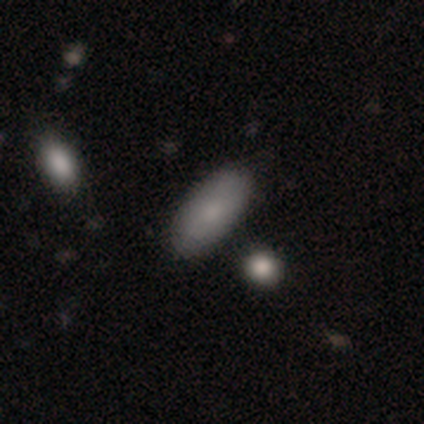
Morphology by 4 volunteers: Overall: smooth (100%). How rounded: in between (100%). Merging: none (75%).